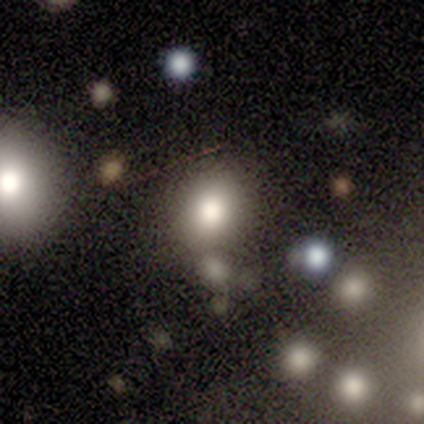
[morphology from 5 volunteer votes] Smooth or featured: smooth — 80% (featured or disk — 20%)
How rounded: round — 100%
Merging: none — 60% (merger — 40%)